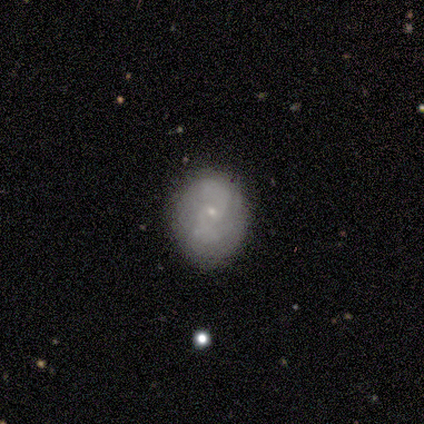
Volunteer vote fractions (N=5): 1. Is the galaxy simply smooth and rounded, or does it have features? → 60% featured or disk, 40% smooth, 0% star or artifact.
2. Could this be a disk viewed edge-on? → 100% no, 0% yes.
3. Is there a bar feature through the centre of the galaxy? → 100% weak, 0% strong, 0% no.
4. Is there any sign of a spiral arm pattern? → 67% yes, 33% no.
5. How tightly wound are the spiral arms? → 50% tight (tied), 50% medium (tied), 0% loose.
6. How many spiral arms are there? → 100% 2, 0% 1, 0% 3, 0% 4, 0% more than 4, 0% can't tell.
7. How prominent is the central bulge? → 100% small, 0% dominant, 0% large, 0% moderate, 0% none.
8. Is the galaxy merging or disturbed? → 60% none, 20% minor disturbance, 20% major disturbance, 0% merger.